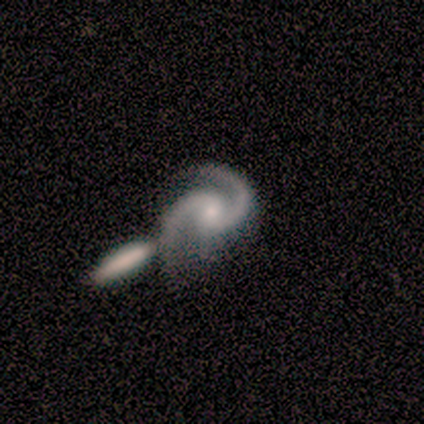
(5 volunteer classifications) smooth-or-featured: featured or disk: 100% | smooth: 0% | star or artifact: 0%
  disk-edge-on: no: 100% | yes: 0%
    bar: weak: 40% (tied) | no: 40% (tied) | strong: 20%
    has-spiral-arms: yes: 100% | no: 0%
      spiral-winding: medium: 80% | tight: 20% | loose: 0%
      spiral-arm-count: 2: 100% | 1: 0% | 3: 0% | 4: 0% | more than 4: 0% | can't tell: 0%
    bulge-size: small: 60% | large: 20% | moderate: 20% | dominant: 0% | none: 0%
  merging: merger: 100% | none: 0% | minor disturbance: 0% | major disturbance: 0%